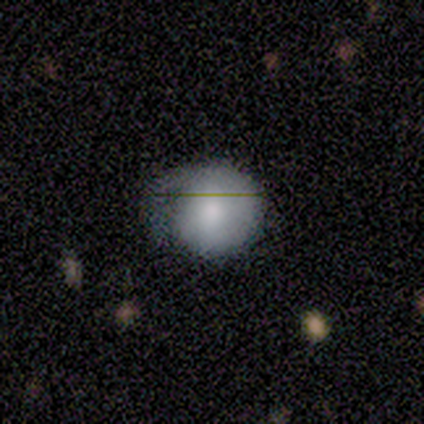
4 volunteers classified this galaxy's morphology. Overall: smooth (75%). How rounded: round (100%). Merging: none (50%, tied with minor disturbance).